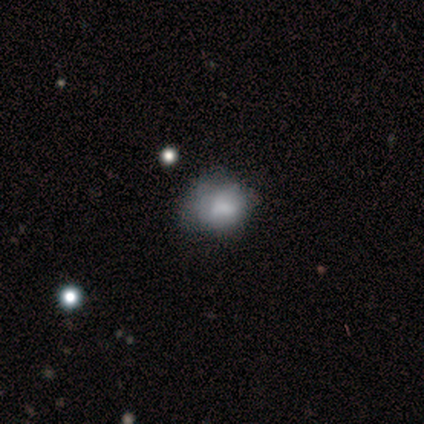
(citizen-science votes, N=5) A smooth galaxy with no disk features (80%) that is round (75%). Merging: none (40%, tied with minor disturbance).